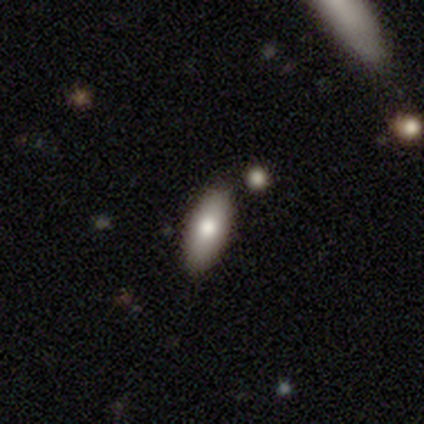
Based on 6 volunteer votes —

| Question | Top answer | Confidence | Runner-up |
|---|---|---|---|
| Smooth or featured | smooth | 67% | featured or disk (33%) |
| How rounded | in between | 75% | cigar-shaped (25%) |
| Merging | none | 100% | — |